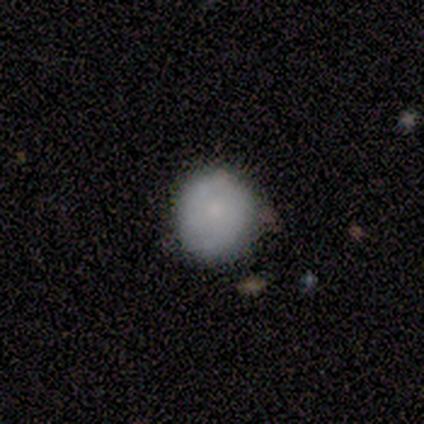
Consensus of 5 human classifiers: Overall: smooth (60%; featured or disk 40%). How rounded: round (100%). Merging: none (60%; minor disturbance 40%).